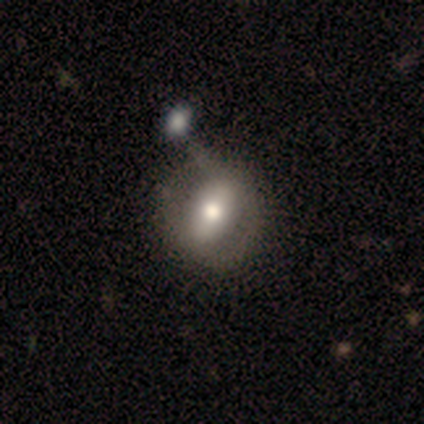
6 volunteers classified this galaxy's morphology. smooth 50%, featured or disk 33%, star or artifact 17%. Down the decision tree: how rounded — in between (67%); merging — none (40%).